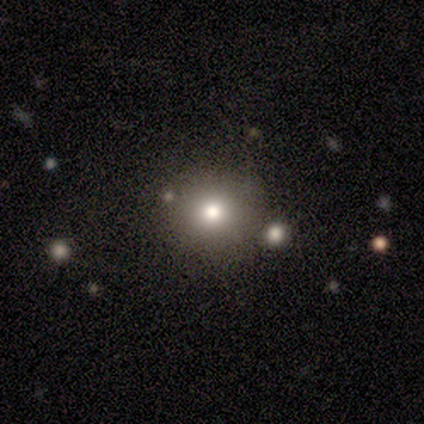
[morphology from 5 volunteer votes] smooth_or_featured: smooth (p=0.40) [tied with: featured or disk p=0.40]
how_rounded: round (p=1.00)
merging: none (p=1.00)